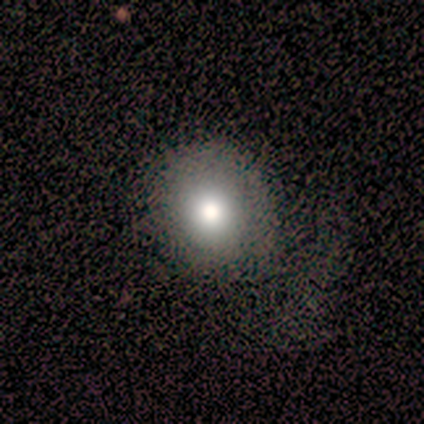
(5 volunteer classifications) smooth_or_featured: smooth (p=0.60) [alt: star or artifact p=0.40]
how_rounded: round (p=0.67) [alt: in between p=0.33]
merging: none (p=0.67) [alt: major disturbance p=0.33]